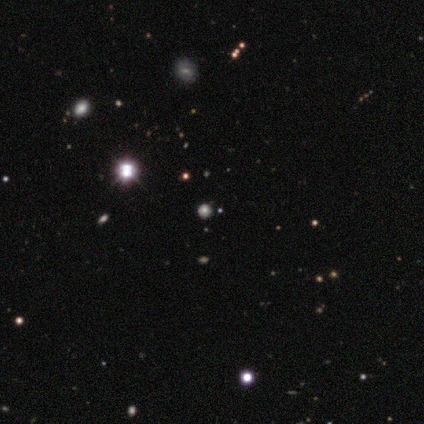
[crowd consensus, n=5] This is marginally a smooth galaxy (40%, tied with star or artifact). How rounded: clearly round (100%). Merging: clearly none (100%).